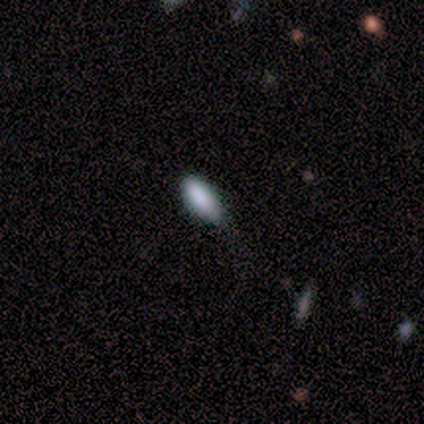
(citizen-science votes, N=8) Smooth or featured? smooth (100%)
How rounded? in between (75%)
Merging? none (62%)